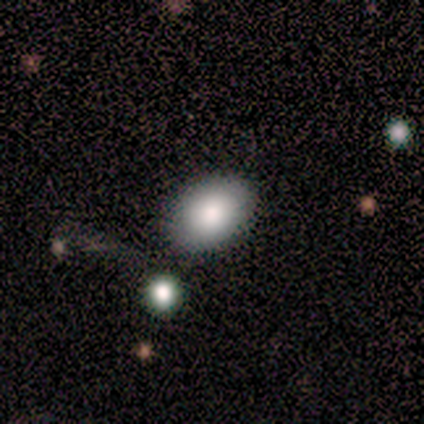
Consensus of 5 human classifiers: Smooth or featured? smooth (80%)
How rounded? in between (100%)
Merging? none (100%)